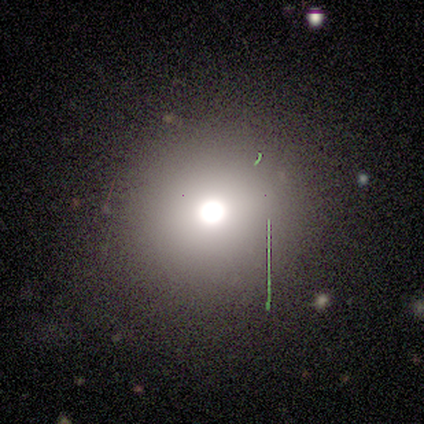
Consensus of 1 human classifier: Morphology: type=star or artifact (100%).